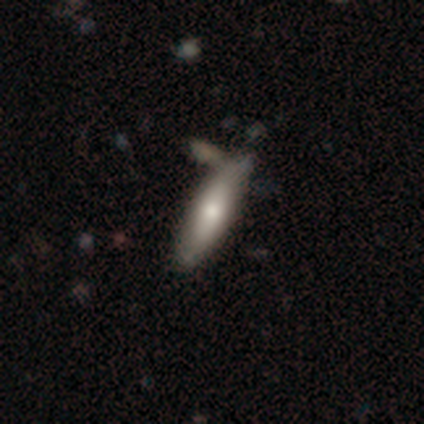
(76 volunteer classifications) Smooth or featured? 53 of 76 (70%) said smooth. How rounded? 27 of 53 (51%) said in between. Merging? 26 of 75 (35%) said none.